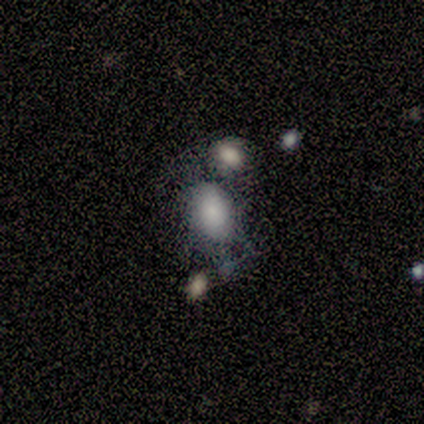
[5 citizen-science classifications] smooth_or_featured: smooth (p=0.60) [alt: featured or disk p=0.40]
how_rounded: in between (p=1.00)
merging: none (p=0.60) [alt: merger p=0.40]